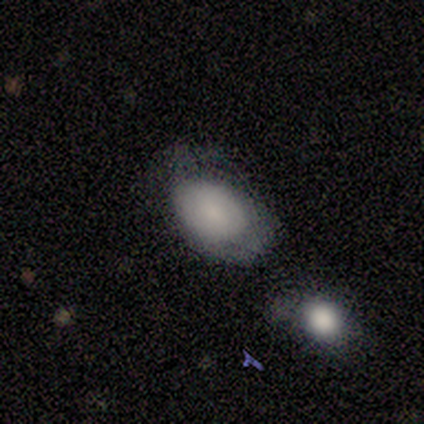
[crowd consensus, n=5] Q: Smooth or featured?
A: smooth (80%); runner-up: featured or disk (20%)
Q: How rounded?
A: in between (100%)
Q: Merging?
A: none (40%); tied with: major disturbance (40%)